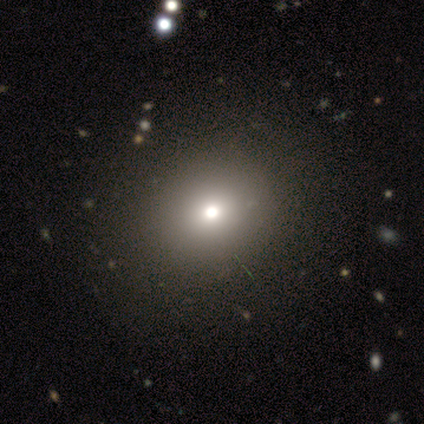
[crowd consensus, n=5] Morphology: type=smooth (40%, tied with featured or disk); roundness=round (100%); merging=none (100%).